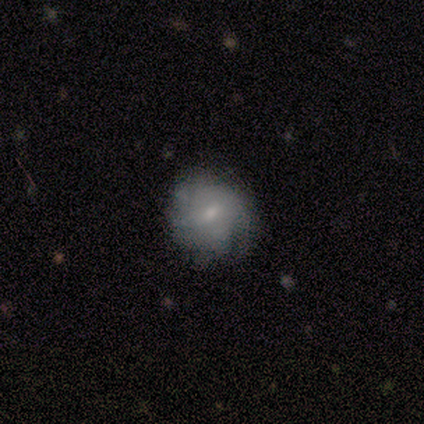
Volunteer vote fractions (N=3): Smooth or featured? 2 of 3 (67%) said featured or disk. Edge-on disk? 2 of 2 (100%) said no. Bar? 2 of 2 (100%) said no. Spiral arms? 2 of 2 (100%) said yes. Spiral winding? 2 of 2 (100%) said tight. Spiral arm count? 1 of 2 (50%, tied with can't tell) said 1. Bulge size? 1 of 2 (50%, tied with small) said moderate. Merging? 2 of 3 (67%) said none.